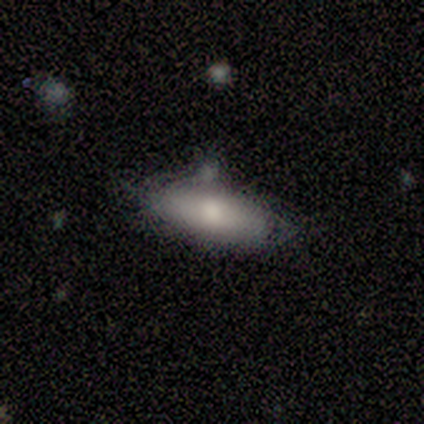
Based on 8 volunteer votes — Smooth or featured?
  - featured or disk: 50% *
  - smooth: 25%
  - star or artifact: 25%
Edge-on disk?
  - yes: 75% *
  - no: 25%
Edge-on bulge?
  - rounded: 100% *
  - boxy: 0%
  - none: 0%
Merging?
  - none: 50% * (tied)
  - minor disturbance: 50% * (tied)
  - major disturbance: 0%
  - merger: 0%